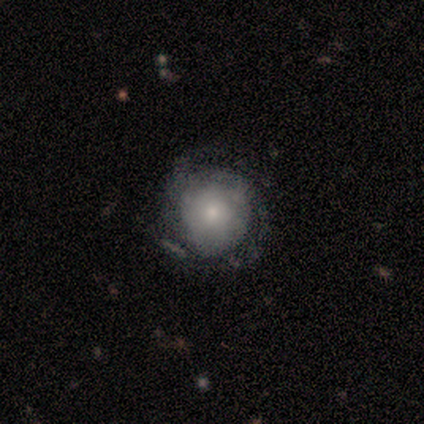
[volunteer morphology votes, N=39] smooth_or_featured: featured or disk (p=0.59) [alt: smooth p=0.41]
disk_edge_on: no (p=0.96) [alt: yes p=0.04]
bar: no (p=0.91) [alt: weak p=0.09]
has_spiral_arms: yes (p=0.68) [alt: no p=0.32]
spiral_winding: tight (p=0.67) [alt: medium p=0.27]
spiral_arm_count: can't tell (p=0.47) [alt: 2 p=0.33]
bulge_size: moderate (p=0.45) [alt: small p=0.41]
merging: none (p=0.69) [alt: minor disturbance p=0.21]